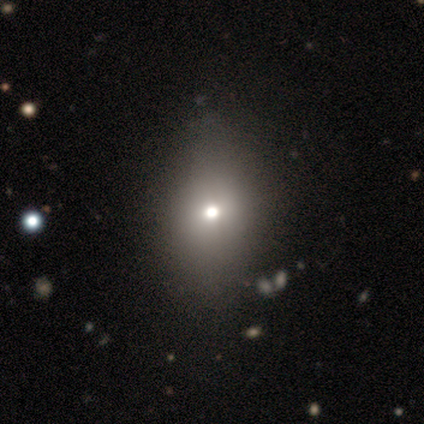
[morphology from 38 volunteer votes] Smooth or featured?
  - smooth: 63% *
  - featured or disk: 24%
  - star or artifact: 13%
How rounded?
  - in between: 75% *
  - round: 21%
  - cigar-shaped: 4%
Merging?
  - none: 48% *
  - minor disturbance: 21%
  - major disturbance: 3%
  - merger: 0%